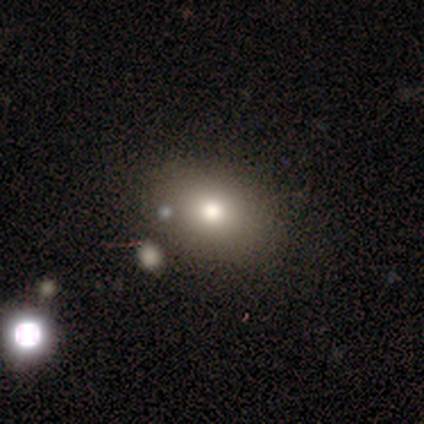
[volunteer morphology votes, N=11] smooth_or_featured: smooth (p=0.64) [alt: featured or disk p=0.18]
how_rounded: in between (p=1.00)
merging: none (p=0.89) [alt: merger p=0.11]